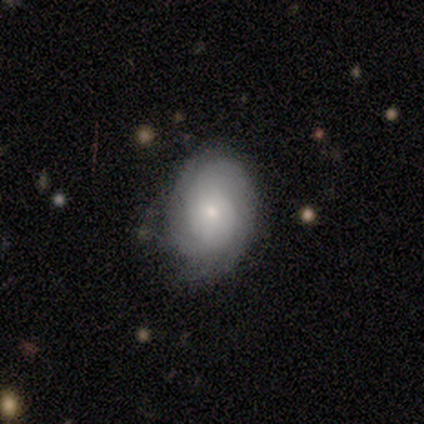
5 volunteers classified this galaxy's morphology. Q: Smooth or featured?
A: featured or disk (60%); runner-up: smooth (40%)
Q: Edge-on disk?
A: no (100%)
Q: Bar?
A: no (67%); runner-up: weak (33%)
Q: Spiral arms?
A: yes (100%)
Q: Spiral winding?
A: medium (67%); runner-up: tight (33%)
Q: Spiral arm count?
A: can't tell (67%); runner-up: 3 (33%)
Q: Bulge size?
A: small (67%); runner-up: moderate (33%)
Q: Merging?
A: minor disturbance (60%); runner-up: none (40%)